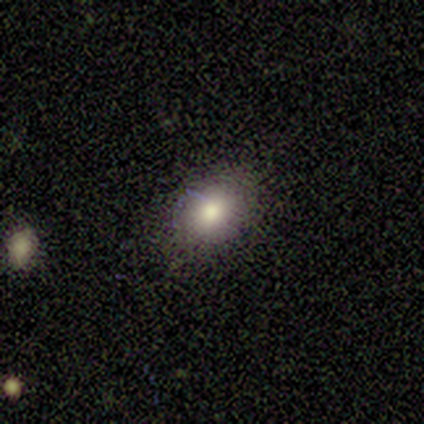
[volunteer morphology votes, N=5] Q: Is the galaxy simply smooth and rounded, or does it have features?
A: smooth — 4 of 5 (80%).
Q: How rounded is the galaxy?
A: in between — 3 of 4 (75%).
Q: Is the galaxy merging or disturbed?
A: none — 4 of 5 (80%).